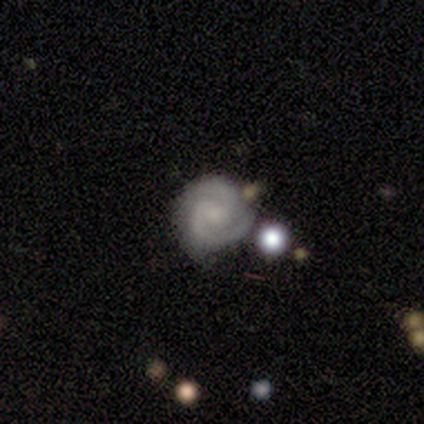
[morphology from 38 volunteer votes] This appears to be a featured or disk galaxy (95%) with no bar (50%), 2 (81%) tight (69%) spiral arms (100%) and a small central bulge (36%, tied with none). Merging: none (57%).